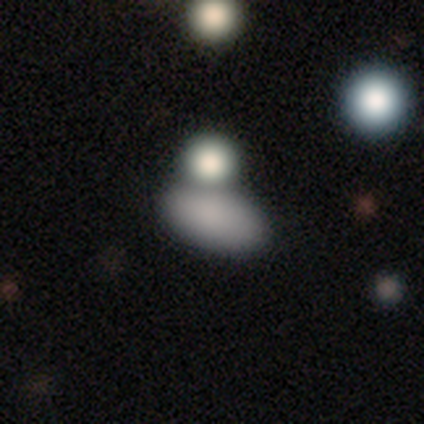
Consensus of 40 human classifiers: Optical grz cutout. It shows a smooth galaxy with no disk features (78%) that is in between round and cigar-shaped (84%). Merging: merger (48%).